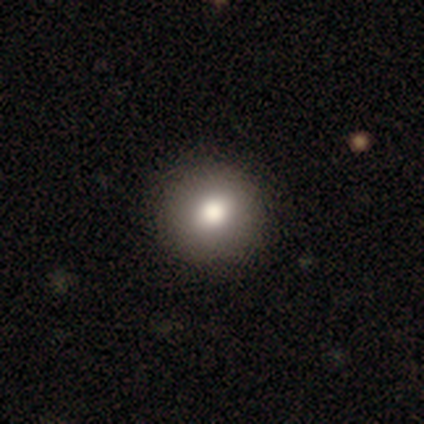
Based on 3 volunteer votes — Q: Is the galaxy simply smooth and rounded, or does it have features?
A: smooth — 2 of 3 (67%).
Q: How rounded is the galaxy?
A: round — 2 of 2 (100%).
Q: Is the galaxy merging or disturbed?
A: none — 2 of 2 (100%).